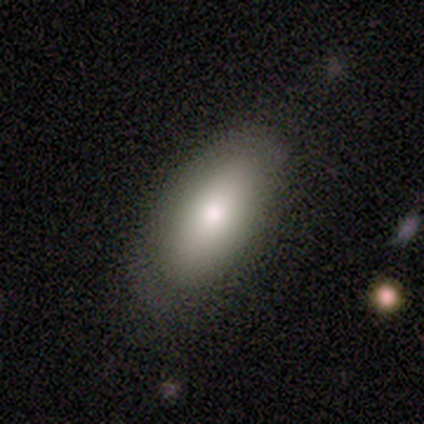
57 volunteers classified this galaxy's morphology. Smooth or featured: smooth — 72% (featured or disk — 14%)
How rounded: in between — 80% (round — 10%)
Merging: none — 63% (minor disturbance — 31%)